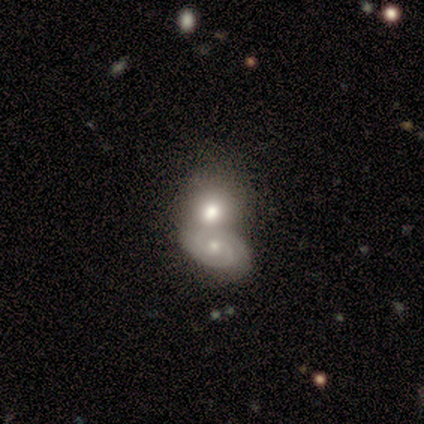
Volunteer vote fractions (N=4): This is likely a smooth galaxy (75%). How rounded: likely in between (67%). Merging: likely merger (75%).